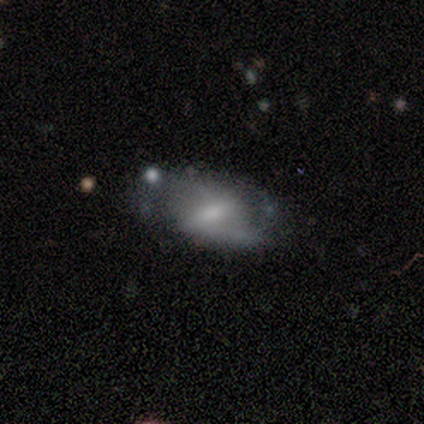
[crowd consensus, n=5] smooth_or_featured: featured or disk (p=0.60) [alt: smooth p=0.40]
disk_edge_on: no (p=1.00)
bar: strong (p=0.67) [alt: no p=0.33]
has_spiral_arms: yes (p=0.67) [alt: no p=0.33]
spiral_winding: tight (p=0.50) [tied with: medium p=0.50]
spiral_arm_count: 2 (p=1.00)
bulge_size: small (p=1.00)
merging: none (p=0.60) [alt: minor disturbance p=0.40]